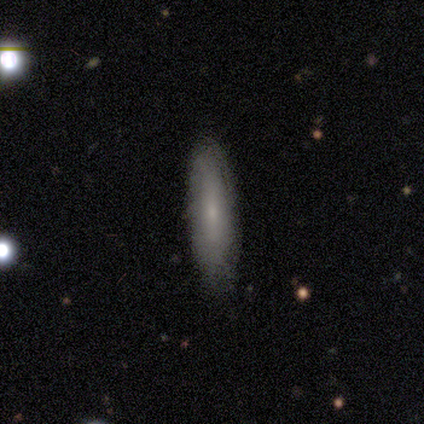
Overall: smooth (50%, tied with featured or disk). How rounded: cigar-shaped (67%; in between 33%). Merging: none (100%).